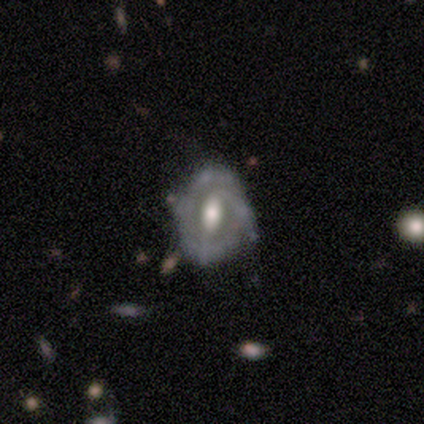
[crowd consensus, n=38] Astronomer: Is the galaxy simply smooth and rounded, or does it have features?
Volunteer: featured or disk — 89%.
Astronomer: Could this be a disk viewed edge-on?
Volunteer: no — 88%.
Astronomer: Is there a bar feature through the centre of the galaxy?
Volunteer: weak — 50% (runner-up: strong, 30%).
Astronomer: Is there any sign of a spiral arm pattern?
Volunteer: yes — 67%.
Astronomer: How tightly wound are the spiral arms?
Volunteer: medium — 50% (runner-up: tight, 35%).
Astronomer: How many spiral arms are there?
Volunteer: can't tell — 35% (runner-up: 1, 25%).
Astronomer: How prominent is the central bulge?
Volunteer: moderate — 57%.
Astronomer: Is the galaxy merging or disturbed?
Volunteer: none — 53% (runner-up: minor disturbance, 36%).